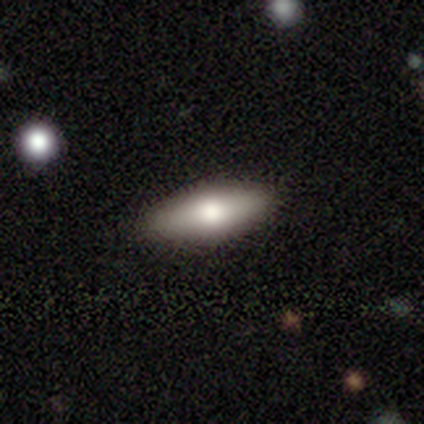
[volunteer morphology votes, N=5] Volunteers were most divided on "how rounded": in between: 75%, cigar-shaped: 25%, round: 0%. More confident: smooth or featured — smooth (80%); merging — none (75%).